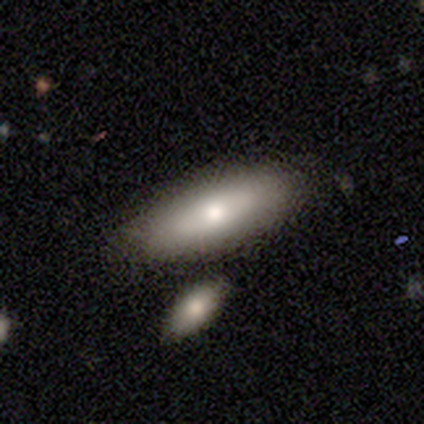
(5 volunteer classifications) Volunteers were most divided on "merging": none: 80%, minor disturbance: 20%, major disturbance: 0%, merger: 0%. More confident: smooth or featured — smooth (100%); how rounded — in between (100%).